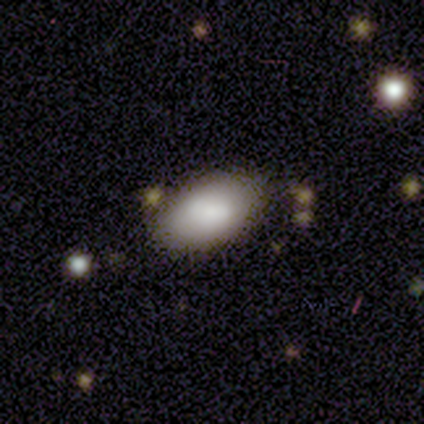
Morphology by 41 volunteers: Q: Smooth or featured?
A: smooth (80%); runner-up: featured or disk (20%)
Q: How rounded?
A: in between (94%); runner-up: round (6%)
Q: Merging?
A: none (78%); runner-up: minor disturbance (10%)